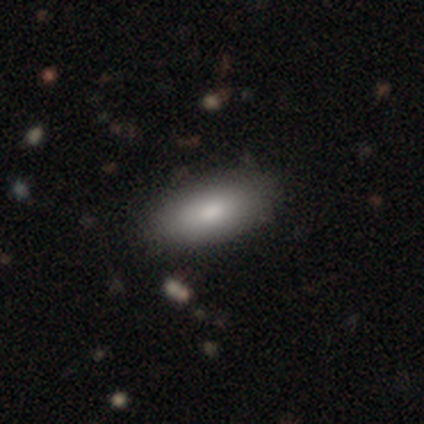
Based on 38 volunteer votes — smooth-or-featured: smooth: 84% | featured or disk: 13% | star or artifact: 3%
  how-rounded: in between: 91% | cigar-shaped: 9% | round: 0%
  merging: none: 57% | minor disturbance: 5% | merger: 3% | major disturbance: 0%